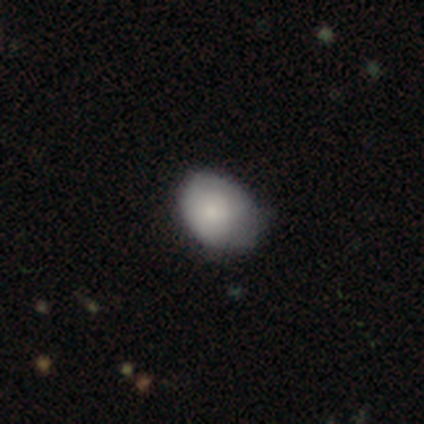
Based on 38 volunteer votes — smooth 82%, featured or disk 16%, star or artifact 3%. Down the decision tree: how rounded — in between (61%); merging — minor disturbance (57%).